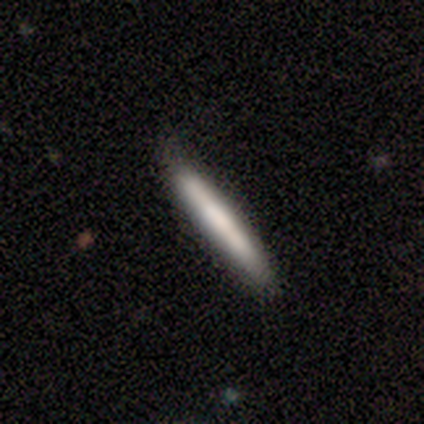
smooth_or_featured: smooth (p=0.83) [alt: featured or disk p=0.17]
how_rounded: cigar-shaped (p=1.00)
merging: none (p=0.83) [alt: minor disturbance p=0.17]